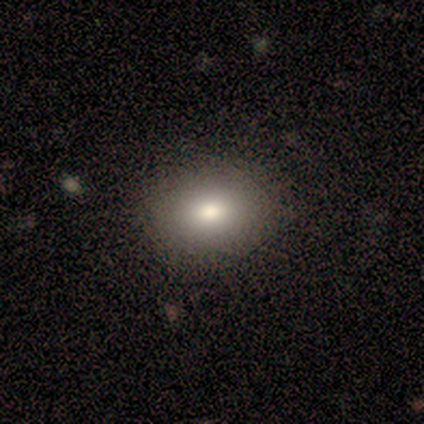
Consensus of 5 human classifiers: smooth 100%, featured or disk 0%, star or artifact 0%. Down the decision tree: how rounded — in between (80%); merging — none (80%).